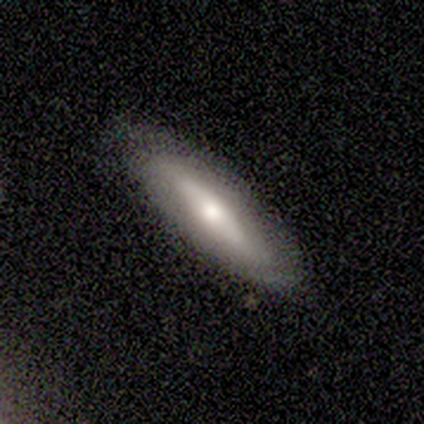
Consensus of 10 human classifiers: Volunteers were most divided on "smooth or featured": smooth: 60%, featured or disk: 40%, star or artifact: 0%. More confident: merging — none (70%); how rounded — cigar-shaped (67%).